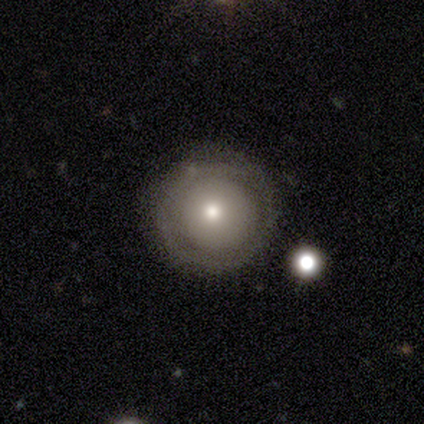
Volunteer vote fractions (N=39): Morphology: type=featured or disk (54%); edge-on=no (90%); bar=no (100%); spiral arms=no (84%); bulge=moderate (47%, tied with small); merging=none (81%).